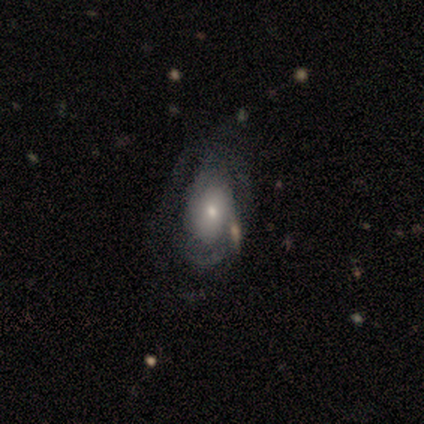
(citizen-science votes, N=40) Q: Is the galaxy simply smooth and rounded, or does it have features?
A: featured or disk — 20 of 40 (50%).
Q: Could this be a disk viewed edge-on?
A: no — 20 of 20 (100%).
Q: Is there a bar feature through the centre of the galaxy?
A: no — 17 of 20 (85%).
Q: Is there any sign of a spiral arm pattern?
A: yes — 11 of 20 (55%).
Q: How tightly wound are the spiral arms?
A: tight — 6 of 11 (55%).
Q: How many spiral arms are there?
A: can't tell — 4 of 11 (36%).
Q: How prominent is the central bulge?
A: small — 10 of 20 (50%).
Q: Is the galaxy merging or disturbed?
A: major disturbance — 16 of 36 (44%).